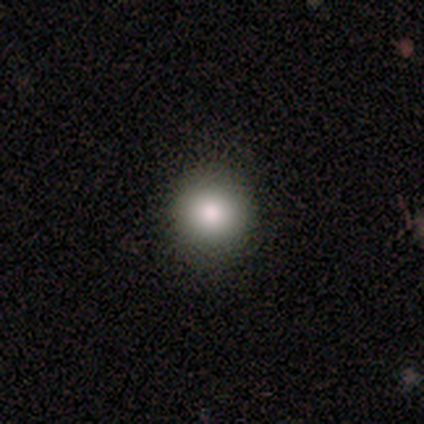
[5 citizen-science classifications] smooth-or-featured: smooth: 100% | featured or disk: 0% | star or artifact: 0%
  how-rounded: round: 100% | in between: 0% | cigar-shaped: 0%
  merging: none: 60% | minor disturbance: 20% | major disturbance: 20% | merger: 0%